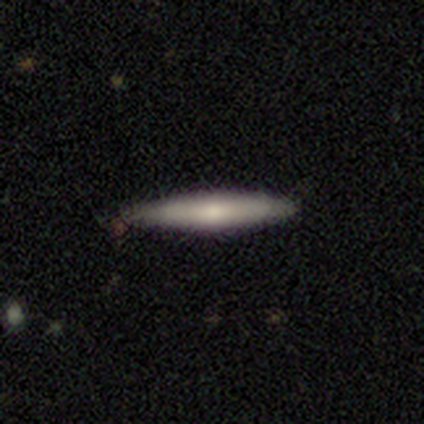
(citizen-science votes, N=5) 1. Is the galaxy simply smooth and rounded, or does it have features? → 60% smooth, 40% featured or disk, 0% star or artifact.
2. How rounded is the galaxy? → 100% cigar-shaped, 0% round, 0% in between.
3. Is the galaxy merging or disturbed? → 100% none, 0% minor disturbance, 0% major disturbance, 0% merger.